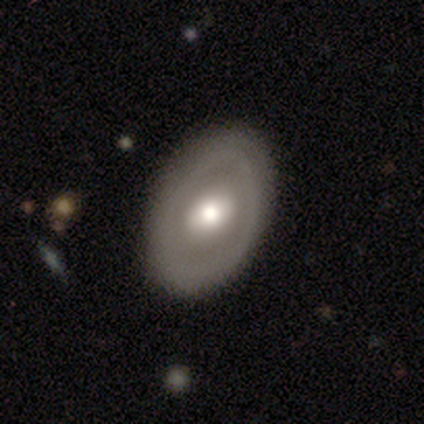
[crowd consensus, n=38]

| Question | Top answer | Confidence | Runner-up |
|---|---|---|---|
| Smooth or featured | featured or disk | 55% | smooth (39%) |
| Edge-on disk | no | 100% | — |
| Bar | no | 71% | weak (29%) |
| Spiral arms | no | 90% | yes (10%) |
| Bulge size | large | 43% | moderate (38%) |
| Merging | none | 78% | minor disturbance (22%) |